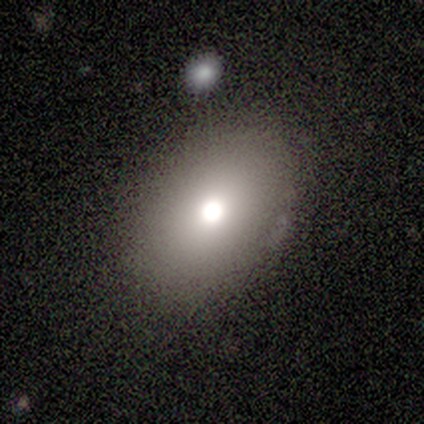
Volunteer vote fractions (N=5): Smooth or featured? 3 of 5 (60%) said smooth. How rounded? 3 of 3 (100%) said in between. Merging? 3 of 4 (75%) said none.